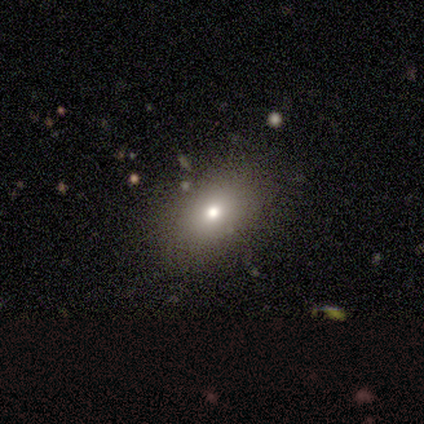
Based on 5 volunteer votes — This is likely a smooth galaxy (60%). How rounded: likely in between (67%). Merging: likely none (75%).